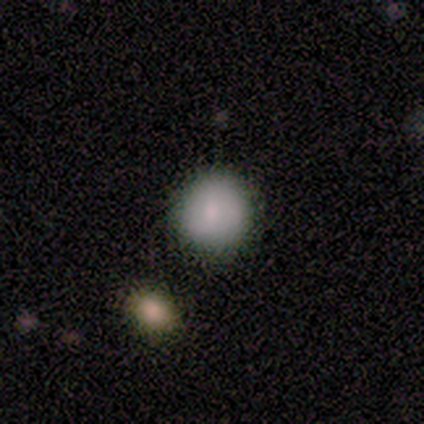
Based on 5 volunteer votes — Smooth or featured?
  - smooth: 100% *
  - featured or disk: 0%
  - star or artifact: 0%
How rounded?
  - round: 80% *
  - in between: 20%
  - cigar-shaped: 0%
Merging?
  - none: 80% *
  - major disturbance: 20%
  - minor disturbance: 0%
  - merger: 0%